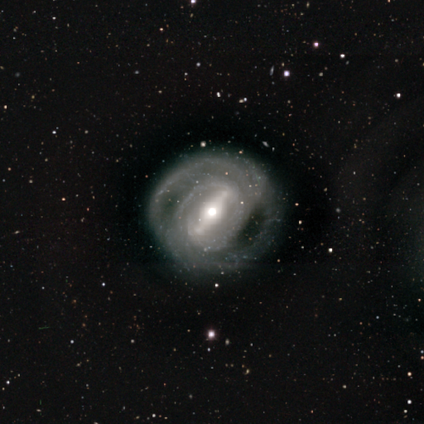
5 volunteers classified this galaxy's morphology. Smooth or featured? featured or disk (100%)
Edge-on disk? no (100%)
Bar? strong (100%)
Spiral arms? yes (100%)
Spiral winding? tight (100%)
Spiral arm count? 2 (40%, tied with can't tell)
Bulge size? moderate (80%)
Merging? none (100%)